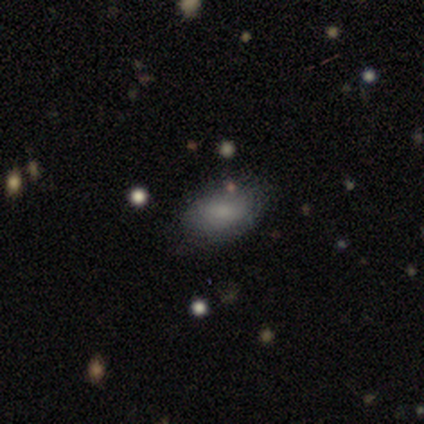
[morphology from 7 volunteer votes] smooth-or-featured: smooth: 86% | featured or disk: 14% | star or artifact: 0%
  how-rounded: in between: 100% | round: 0% | cigar-shaped: 0%
  merging: minor disturbance: 86% | none: 14% | major disturbance: 0% | merger: 0%